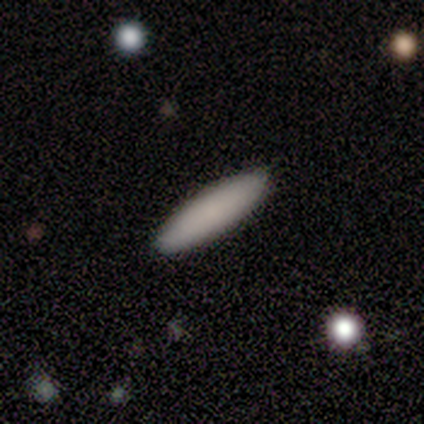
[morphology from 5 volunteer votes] Smooth or featured: smooth — 80% (featured or disk — 20%)
How rounded: in between — 50% (tied with cigar-shaped — 50%)
Merging: none — 100%